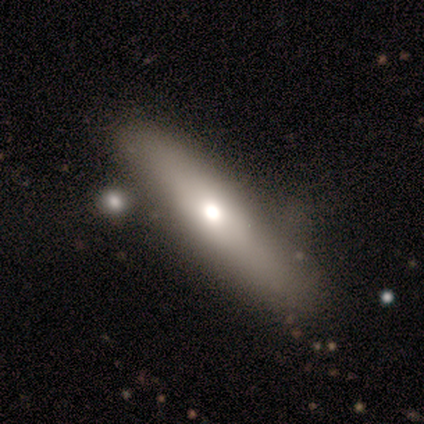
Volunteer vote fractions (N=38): A featured or disk galaxy (53%) viewed edge-on (55%) with a rounded central bulge (64%). Merging: none (72%).